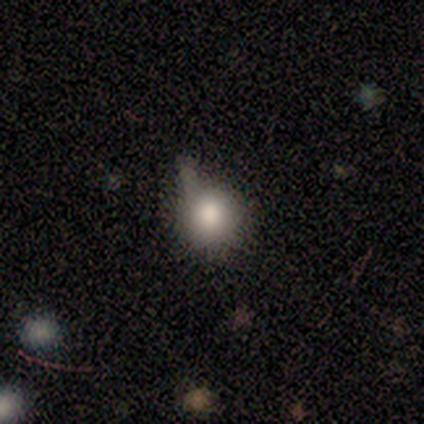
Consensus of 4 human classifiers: Smooth or featured? smooth (50%)
How rounded? round (100%)
Merging? minor disturbance (67%)